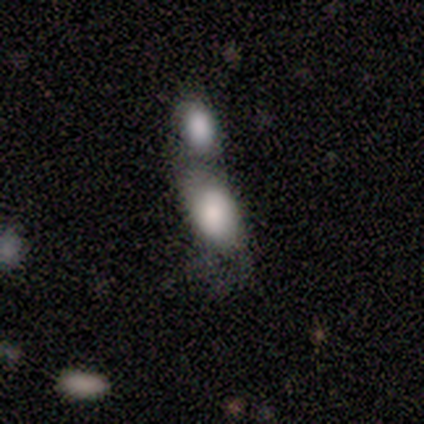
Smooth or featured? 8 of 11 (73%) said smooth. How rounded? 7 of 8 (88%) said in between. Merging? 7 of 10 (70%) said merger.